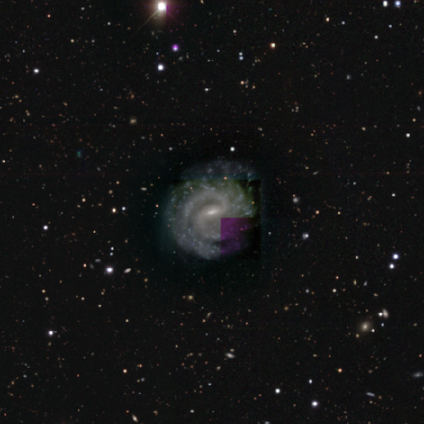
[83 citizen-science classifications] Q: Smooth or featured?
A: featured or disk (90%); runner-up: star or artifact (6%)
Q: Edge-on disk?
A: no (99%); runner-up: yes (1%)
Q: Bar?
A: weak (65%); runner-up: strong (19%)
Q: Spiral arms?
A: yes (100%)
Q: Spiral winding?
A: tight (54%); runner-up: medium (41%)
Q: Spiral arm count?
A: 2 (84%); runner-up: can't tell (8%)
Q: Bulge size?
A: small (78%); runner-up: moderate (18%)
Q: Merging?
A: none (71%); runner-up: minor disturbance (24%)